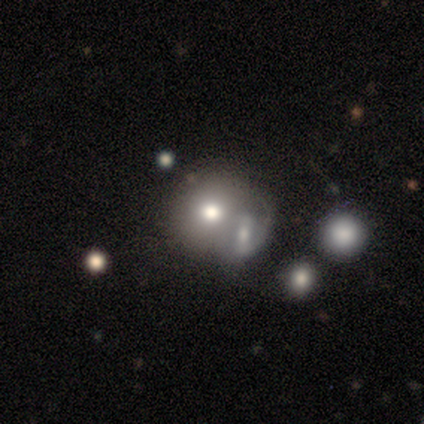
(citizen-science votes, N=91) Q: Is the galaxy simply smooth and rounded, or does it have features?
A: smooth — 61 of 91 (67%).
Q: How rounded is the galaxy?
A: round — 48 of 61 (79%).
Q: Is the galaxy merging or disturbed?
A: merger — 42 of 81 (52%).